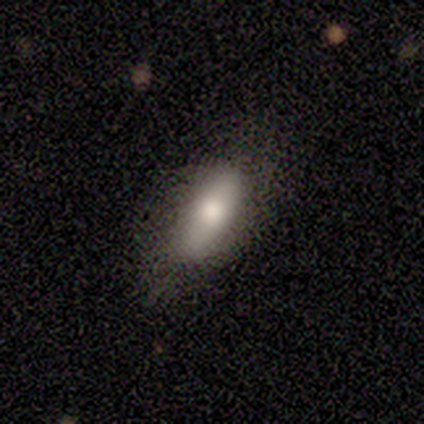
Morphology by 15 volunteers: This is clearly a smooth galaxy (87%). How rounded: clearly in between (92%). Merging: likely none (64%).